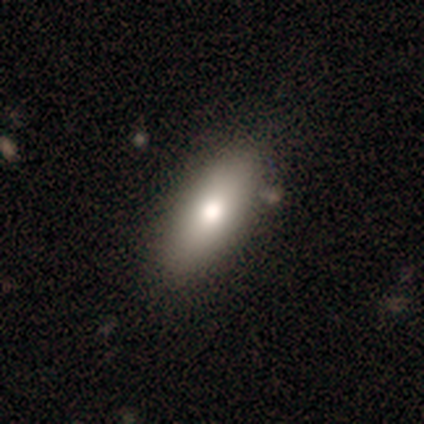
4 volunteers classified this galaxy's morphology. type=smooth (75%); roundness=cigar-shaped (67%); merging=none (75%).